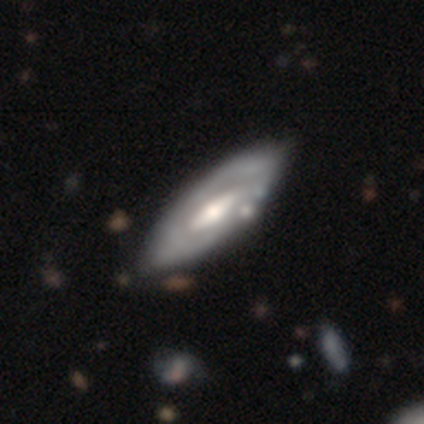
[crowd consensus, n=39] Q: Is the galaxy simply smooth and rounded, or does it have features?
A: featured or disk — 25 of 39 (64%).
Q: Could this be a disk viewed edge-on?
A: no — 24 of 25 (96%).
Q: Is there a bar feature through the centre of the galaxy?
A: weak — 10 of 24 (42%).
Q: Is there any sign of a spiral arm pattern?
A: yes — 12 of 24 (50%, tied with no).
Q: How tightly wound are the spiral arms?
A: tight — 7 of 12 (58%).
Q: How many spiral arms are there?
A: can't tell — 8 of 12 (67%).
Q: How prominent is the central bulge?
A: moderate — 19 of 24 (79%).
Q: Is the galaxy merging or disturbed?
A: none — 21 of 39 (54%).